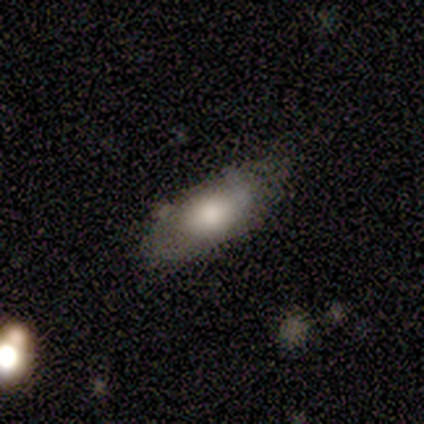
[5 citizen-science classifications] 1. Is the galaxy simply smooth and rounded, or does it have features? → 60% smooth, 40% featured or disk, 0% star or artifact.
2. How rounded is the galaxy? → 100% in between, 0% round, 0% cigar-shaped.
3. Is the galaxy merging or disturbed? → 80% none, 20% minor disturbance, 0% major disturbance, 0% merger.